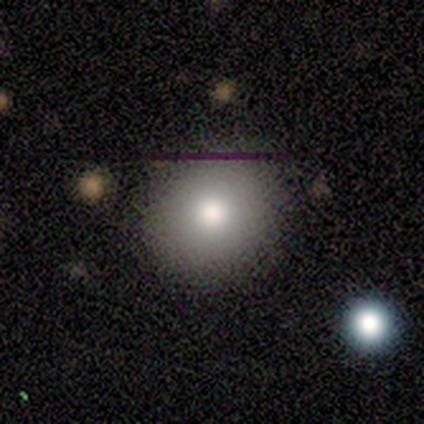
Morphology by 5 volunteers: smooth-or-featured: smooth: 100% | featured or disk: 0% | star or artifact: 0%
  how-rounded: round: 100% | in between: 0% | cigar-shaped: 0%
  merging: none: 100% | minor disturbance: 0% | major disturbance: 0% | merger: 0%